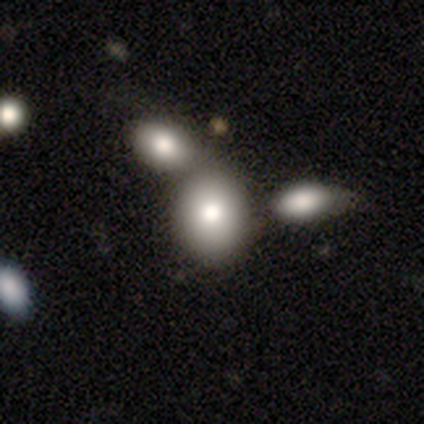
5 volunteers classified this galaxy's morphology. A smooth galaxy with no disk features (80%) that is in between round and cigar-shaped (100%).

Vote fractions:
- Smooth or featured? smooth: 80% / star or artifact: 20% / featured or disk: 0%
- How rounded? in between: 100% / round: 0% / cigar-shaped: 0%
- Merging? merger: 50% / none: 25% / minor disturbance: 25% / major disturbance: 0%